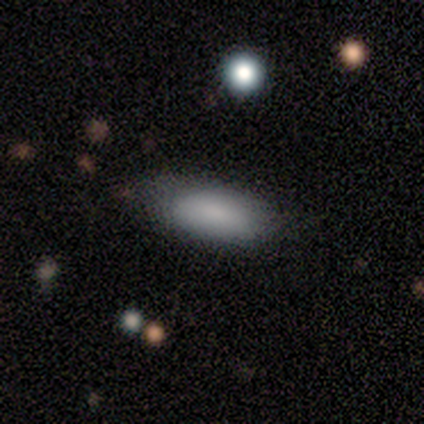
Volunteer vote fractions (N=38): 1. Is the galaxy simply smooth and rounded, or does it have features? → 82% smooth, 13% featured or disk, 5% star or artifact.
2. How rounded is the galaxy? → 87% in between, 13% cigar-shaped, 0% round.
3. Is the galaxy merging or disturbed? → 64% none, 25% minor disturbance, 11% merger, 0% major disturbance.